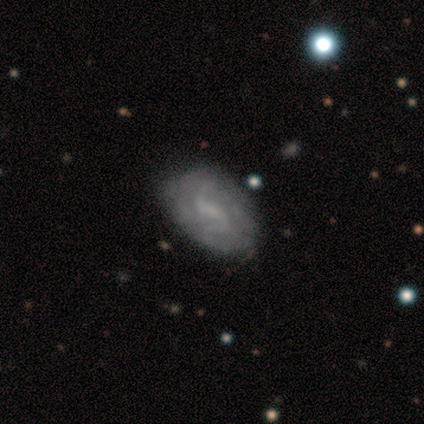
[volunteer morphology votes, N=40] Smooth or featured? 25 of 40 (62%) said featured or disk. Edge-on disk? 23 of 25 (92%) said no. Bar? 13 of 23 (57%) said weak. Spiral arms? 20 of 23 (87%) said yes. Spiral winding? 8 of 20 (40%) said medium. Spiral arm count? 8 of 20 (40%) said can't tell. Bulge size? 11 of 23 (48%) said small. Merging? 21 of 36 (58%) said none.